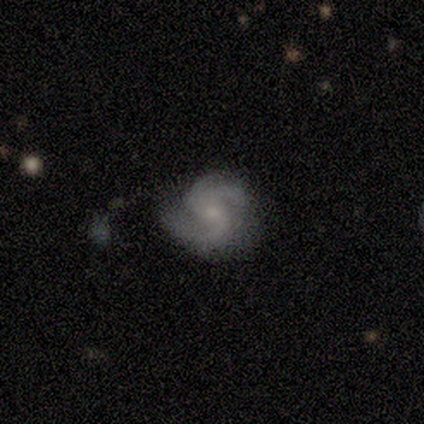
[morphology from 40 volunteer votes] type=featured or disk (90%); edge-on=no (97%); bar=no (69%); spiral arms=yes (97%); winding=medium (56%); arm count=2 (65%); bulge=small (66%); merging=none (68%).